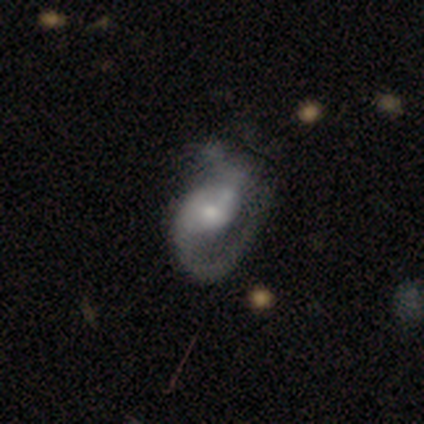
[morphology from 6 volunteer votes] A featured or disk galaxy (50%) with a strong bar (33%, tied with weak and no), 1 (67%) medium (67%) spiral arms (100%) and a small central bulge (67%).

Vote fractions:
- Smooth or featured? featured or disk: 50% / smooth: 33% / star or artifact: 17%
- Edge-on disk? no: 100% / yes: 0%
- Bar? strong: 33% (tied) / weak: 33% (tied) / no: 33% (tied)
- Spiral arms? yes: 100% / no: 0%
- Spiral winding? medium: 67% / tight: 33% / loose: 0%
- Spiral arm count? 1: 67% / 2: 33% / 3: 0% / 4: 0% / more than 4: 0% / can't tell: 0%
- Bulge size? small: 67% / moderate: 33% / dominant: 0% / large: 0% / none: 0%
- Merging? none: 40% (tied) / major disturbance: 40% (tied) / merger: 20% / minor disturbance: 0%